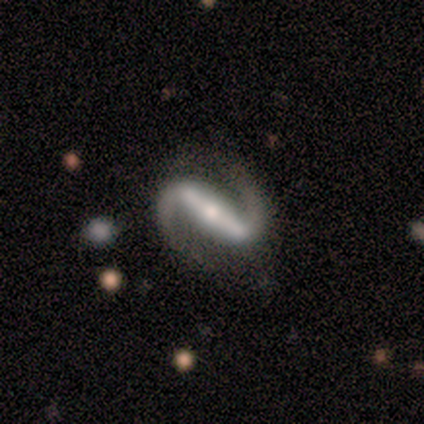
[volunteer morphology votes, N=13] Smooth or featured?
  - featured or disk: 100% *
  - smooth: 0%
  - star or artifact: 0%
Edge-on disk?
  - no: 100% *
  - yes: 0%
Bar?
  - strong: 85% *
  - weak: 8%
  - no: 8%
Spiral arms?
  - yes: 92% *
  - no: 8%
Spiral winding?
  - medium: 58% *
  - loose: 42%
  - tight: 0%
Spiral arm count?
  - 2: 92% *
  - 1: 8%
  - 3: 0%
  - 4: 0%
  - more than 4: 0%
  - can't tell: 0%
Bulge size?
  - moderate: 54% *
  - small: 31%
  - none: 15%
  - dominant: 0%
  - large: 0%
Merging?
  - none: 77% *
  - minor disturbance: 23%
  - major disturbance: 0%
  - merger: 0%